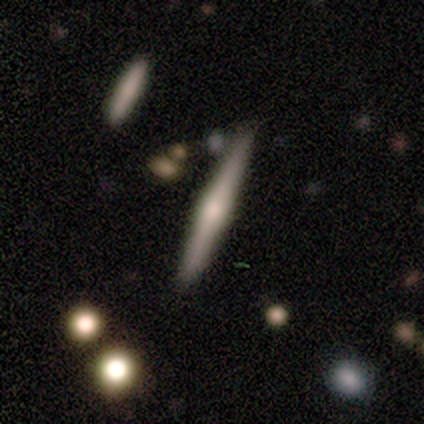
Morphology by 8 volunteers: Q: Smooth or featured?
A: featured or disk (88%); runner-up: smooth (12%)
Q: Edge-on disk?
A: yes (100%)
Q: Edge-on bulge?
A: rounded (100%)
Q: Merging?
A: none (100%)